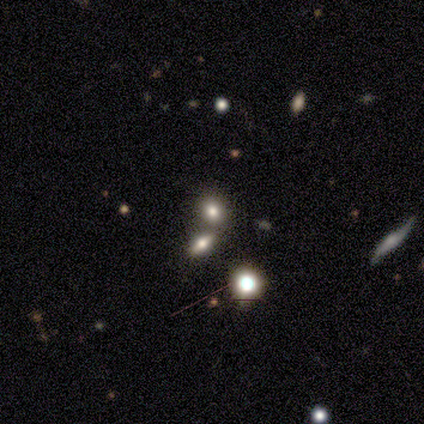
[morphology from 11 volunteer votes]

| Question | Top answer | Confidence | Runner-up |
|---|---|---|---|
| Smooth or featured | smooth | 45% | tied: star or artifact (45%) |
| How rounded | in between | 60% | round (40%) |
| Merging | none | 50% | tied: merger (50%) |